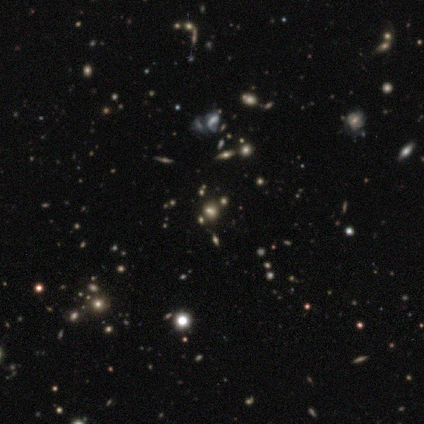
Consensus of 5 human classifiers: Smooth or featured?
  - star or artifact: 80% *
  - smooth: 20%
  - featured or disk: 0%